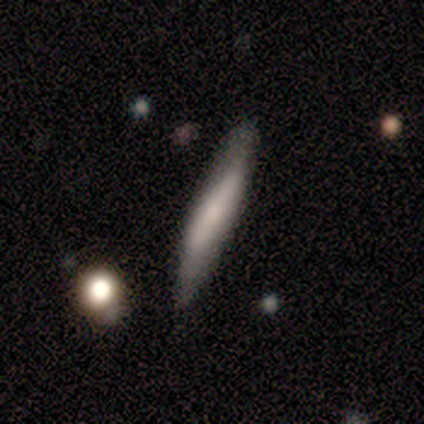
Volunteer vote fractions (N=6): A featured or disk galaxy (67%) viewed edge-on (75%) with a boxy central bulge (67%).

Vote fractions:
- Smooth or featured? featured or disk: 67% / smooth: 33% / star or artifact: 0%
- Edge-on disk? yes: 75% / no: 25%
- Edge-on bulge? boxy: 67% / none: 33% / rounded: 0%
- Merging? none: 50% (tied) / minor disturbance: 50% (tied) / major disturbance: 0% / merger: 0%